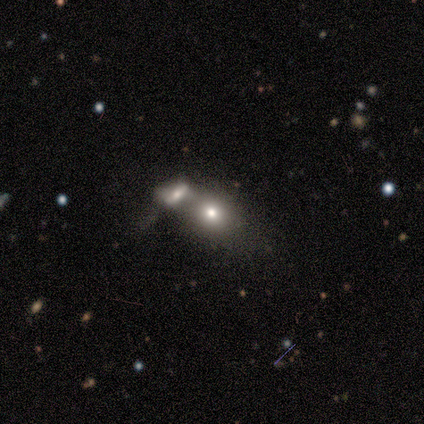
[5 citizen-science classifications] Morphology: type=smooth (60%); roundness=round (100%); merging=merger (100%).